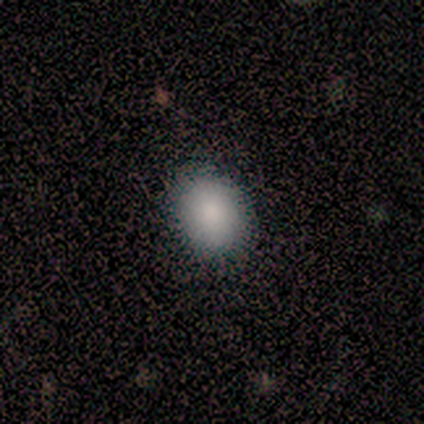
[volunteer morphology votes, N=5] Smooth or featured?
  - smooth: 80% *
  - star or artifact: 20%
  - featured or disk: 0%
How rounded?
  - round: 75% *
  - in between: 25%
  - cigar-shaped: 0%
Merging?
  - none: 100% *
  - minor disturbance: 0%
  - major disturbance: 0%
  - merger: 0%